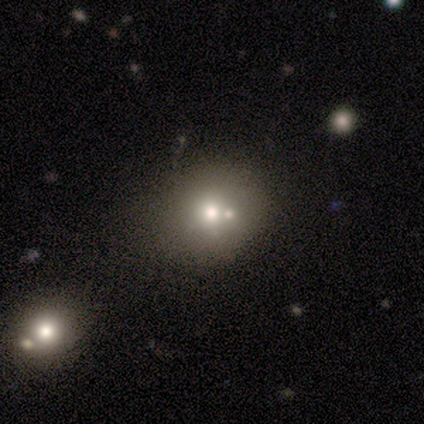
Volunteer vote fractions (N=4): Smooth or featured?
  - smooth: 50% * (tied)
  - featured or disk: 50% * (tied)
  - star or artifact: 0%
How rounded?
  - round: 50% * (tied)
  - in between: 50% * (tied)
  - cigar-shaped: 0%
Merging?
  - none: 50% * (tied)
  - minor disturbance: 50% * (tied)
  - major disturbance: 0%
  - merger: 0%